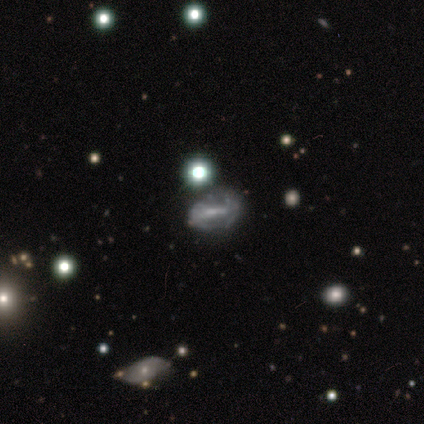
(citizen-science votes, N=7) A featured or disk galaxy (86%) with a weak bar (50%), medium (100%) spiral arms (50%, tied with no) and no central bulge (75%). Merging: none (67%).